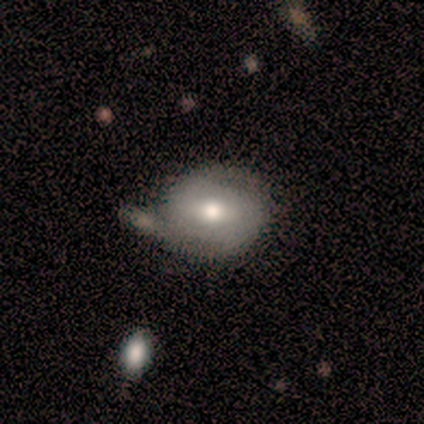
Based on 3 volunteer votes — featured or disk 67%, smooth 33%, star or artifact 0%. Down the decision tree: edge-on disk — no (100%); bar — weak (50%, tied with no); spiral arms — yes (100%); spiral arm count — 3 (50%, tied with can't tell); spiral winding — medium (100%); bulge size — moderate (100%); merging — none (67%).